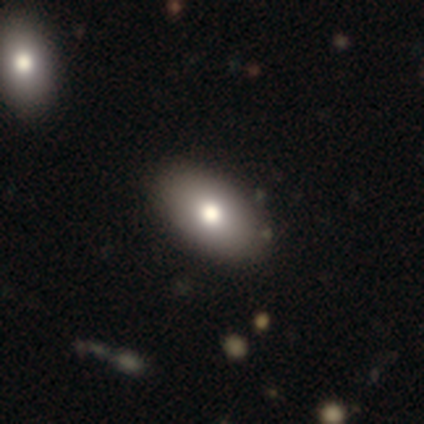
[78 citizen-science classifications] A smooth galaxy with no disk features (86%) that is in between round and cigar-shaped (97%). Merging: none (48%).